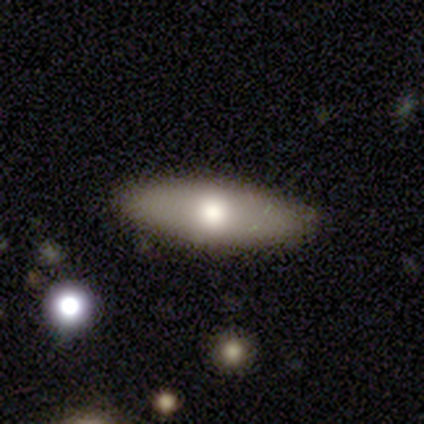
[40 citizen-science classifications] Smooth or featured? 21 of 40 (52%) said smooth. How rounded? 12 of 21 (57%) said cigar-shaped. Merging? 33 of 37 (89%) said none.